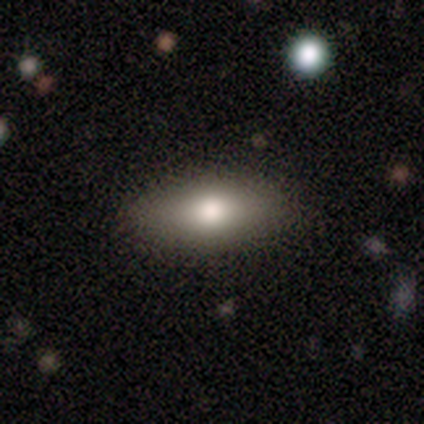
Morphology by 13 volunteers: Q: Smooth or featured?
A: smooth (92%); runner-up: featured or disk (8%)
Q: How rounded?
A: in between (83%); runner-up: cigar-shaped (17%)
Q: Merging?
A: none (92%); runner-up: minor disturbance (8%)